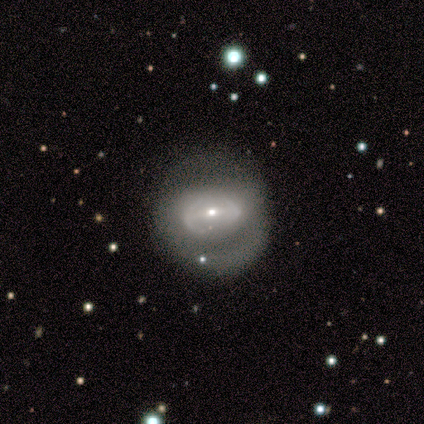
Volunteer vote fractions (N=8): Volunteers were most divided on "spiral winding" (2-way tie): tight: 40%, loose: 40%, medium: 20%; "spiral arm count" (2-way tie): 2: 40%, can't tell: 40%, 1: 20%, 3: 0%, 4: 0%, more than 4: 0%. More confident: edge-on disk — no (100%); smooth or featured — featured or disk (88%); spiral arms — yes (71%); bulge size — small (71%); merging — none (62%); bar — weak (57%).